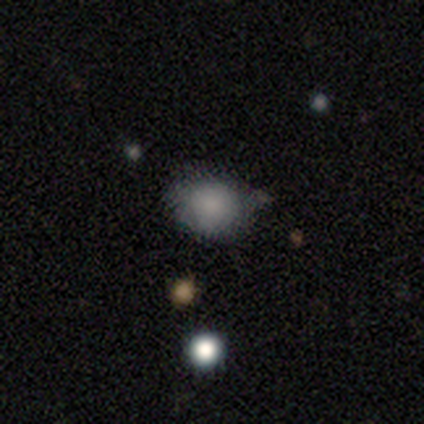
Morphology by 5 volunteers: Smooth or featured? smooth (80%)
How rounded? round (50%, tied with in between)
Merging? none (100%)